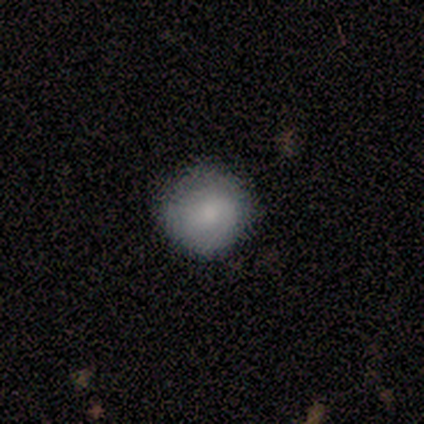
Smooth or featured? smooth (50%, tied with featured or disk)
How rounded? round (100%)
Merging? none (75%)